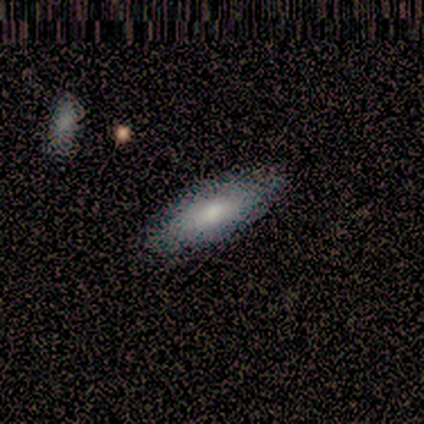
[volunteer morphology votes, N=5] Smooth or featured: featured or disk — 60% (smooth — 40%)
Edge-on disk: no — 67% (yes — 33%)
Bar: no — 100%
Spiral arms: no — 100%
Bulge size: moderate — 50% (tied with none — 50%)
Merging: none — 60% (minor disturbance — 20%)